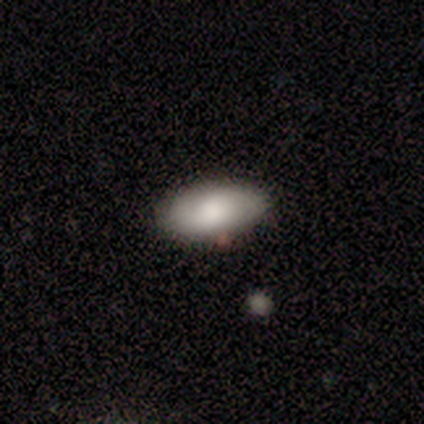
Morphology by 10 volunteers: Smooth or featured: smooth — 80% (featured or disk — 10%)
How rounded: in between — 88% (cigar-shaped — 12%)
Merging: none — 89% (merger — 11%)